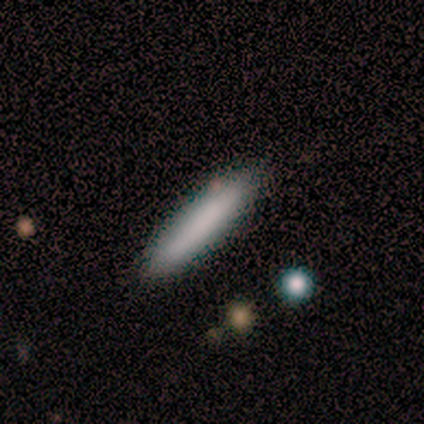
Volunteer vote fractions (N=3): This appears to be a smooth galaxy with no disk features (100%) that is cigar-shaped (100%). Merging: none (67%).